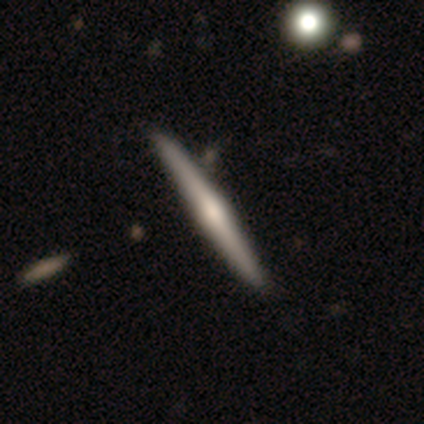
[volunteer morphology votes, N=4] This appears to be a featured or disk galaxy (75%) viewed edge-on (100%) with a rounded central bulge (67%). Merging: none (100%).